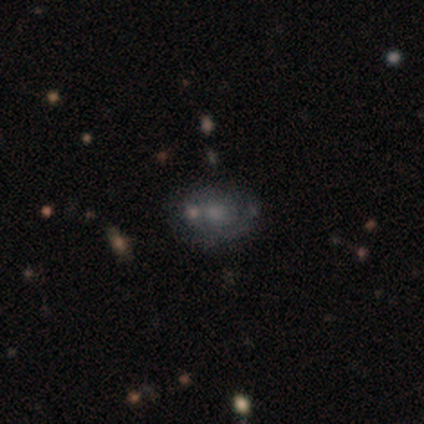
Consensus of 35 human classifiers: A featured or disk galaxy (49%) with no bar (100%), tight (70%) spiral arms (59%) and a small central bulge (35%). Merging: none (46%).